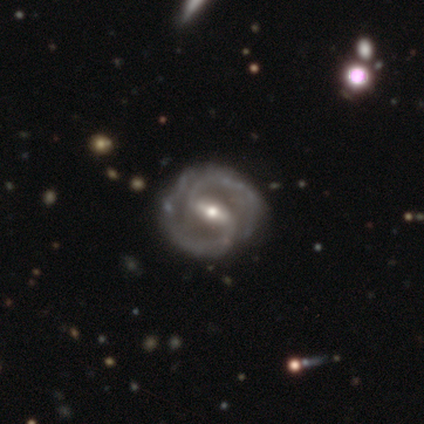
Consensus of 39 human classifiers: A featured or disk galaxy (97%) with a strong bar (65%), 2 (92%) medium (58%) spiral arms (97%) and a moderate central bulge (54%). Merging: none (79%).